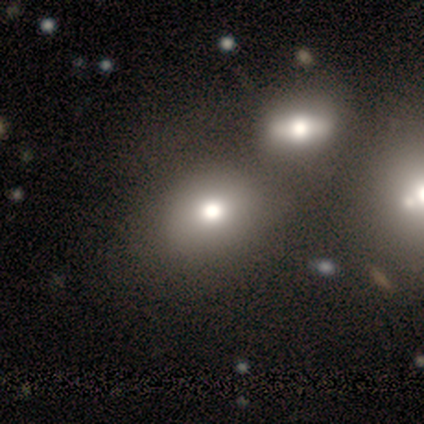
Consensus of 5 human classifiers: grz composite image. It shows a smooth galaxy with no disk features (40%, tied with featured or disk) that is round (50%, tied with in between). Merging: none (75%).